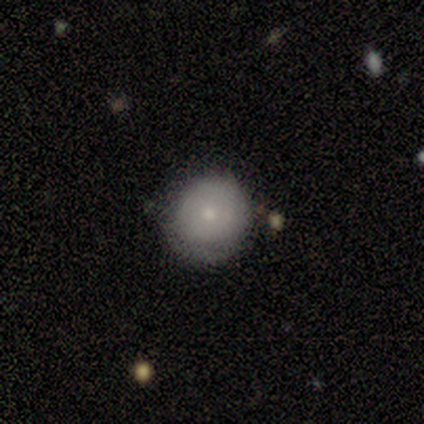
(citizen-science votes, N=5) Smooth or featured: smooth — 60% (featured or disk — 40%)
How rounded: round — 100%
Merging: minor disturbance — 60% (none — 20%)